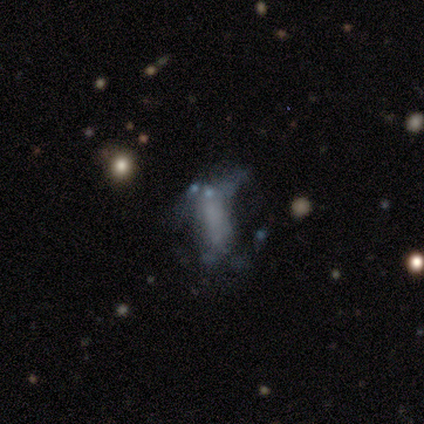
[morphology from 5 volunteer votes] This is marginally a smooth galaxy (40%, tied with featured or disk). How rounded: clearly cigar-shaped (100%). Merging: likely minor disturbance (75%).